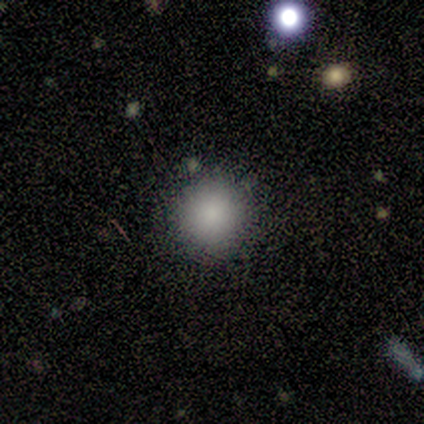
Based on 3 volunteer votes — This is likely a smooth galaxy (67%). How rounded: clearly round (100%). Merging: clearly none (100%).